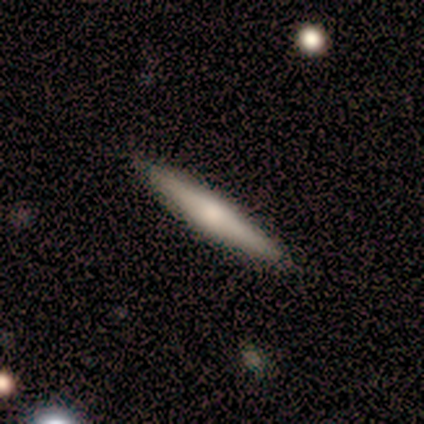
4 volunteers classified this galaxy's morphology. A smooth galaxy with no disk features (100%) that is cigar-shaped (100%).

Vote fractions:
- Smooth or featured? smooth: 100% / featured or disk: 0% / star or artifact: 0%
- How rounded? cigar-shaped: 100% / round: 0% / in between: 0%
- Merging? none: 100% / minor disturbance: 0% / major disturbance: 0% / merger: 0%